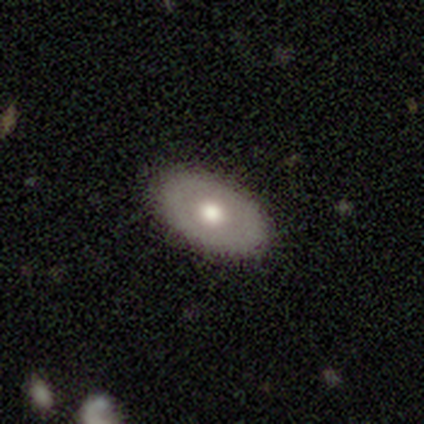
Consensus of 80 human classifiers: Smooth or featured: smooth — 51% (featured or disk — 44%)
How rounded: in between — 98% (round — 2%)
Merging: none — 49% (minor disturbance — 8%)